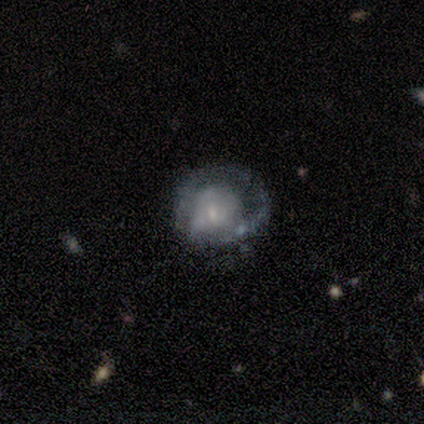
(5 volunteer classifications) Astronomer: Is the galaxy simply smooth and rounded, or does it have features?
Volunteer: featured or disk — 60% (runner-up: smooth, 40%).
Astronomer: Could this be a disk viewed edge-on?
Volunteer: no — 100%.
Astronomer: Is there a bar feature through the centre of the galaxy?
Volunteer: no — 100%.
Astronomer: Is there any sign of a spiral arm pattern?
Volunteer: yes — 67%.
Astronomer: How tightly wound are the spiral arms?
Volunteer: tight — 100%.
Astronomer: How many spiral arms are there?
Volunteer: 1 — 100%.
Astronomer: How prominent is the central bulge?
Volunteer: small — 67%.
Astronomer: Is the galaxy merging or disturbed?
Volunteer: minor disturbance — 40%, tied with major disturbance at 40%.